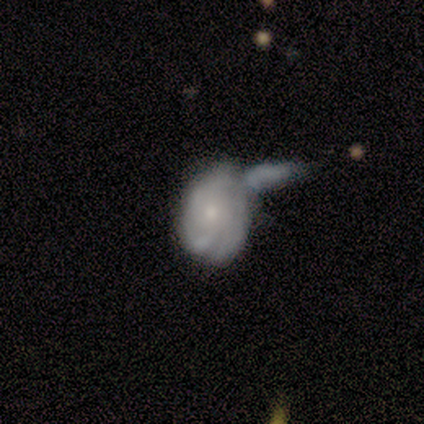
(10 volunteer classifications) Smooth or featured? 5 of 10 (50%) said smooth. How rounded? 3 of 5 (60%) said in between. Merging? 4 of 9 (44%, tied with merger) said major disturbance.